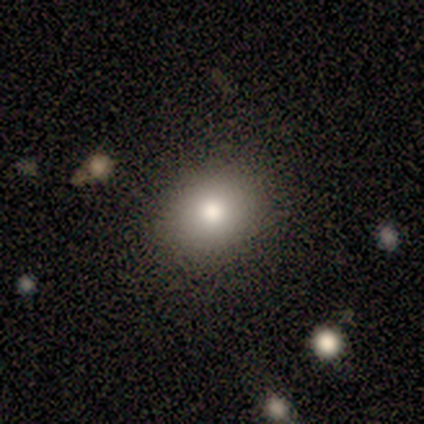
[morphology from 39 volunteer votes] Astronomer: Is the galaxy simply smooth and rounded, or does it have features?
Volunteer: smooth — 79%.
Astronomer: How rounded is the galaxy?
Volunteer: round — 52% (runner-up: in between, 48%).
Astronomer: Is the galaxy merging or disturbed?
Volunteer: none — 85%.